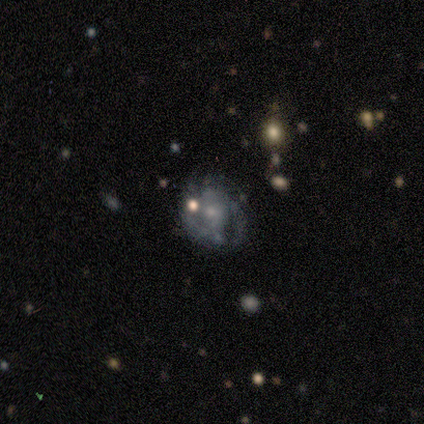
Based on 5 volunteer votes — This is clearly a featured or disk galaxy (80%). It is clearly not viewed edge-on (100%). Bar: possibly weak (50%). Spiral arm pattern: clearly yes (100%). Spiral arm count: likely 2 (75%). Spiral winding: possibly tight (50%, tied with medium). Central bulge: likely small (75%). Merging: clearly none (100%).